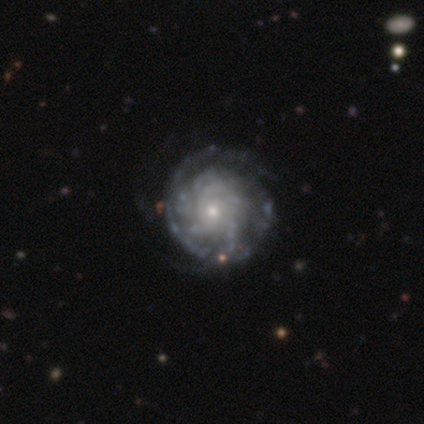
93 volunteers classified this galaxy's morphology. Smooth or featured? 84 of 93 (90%) said featured or disk. Edge-on disk? 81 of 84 (96%) said no. Bar? 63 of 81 (78%) said no. Spiral arms? 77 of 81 (95%) said yes. Spiral winding? 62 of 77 (81%) said tight. Spiral arm count? 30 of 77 (39%) said can't tell. Bulge size? 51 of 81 (63%) said small. Merging? 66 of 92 (72%) said none.